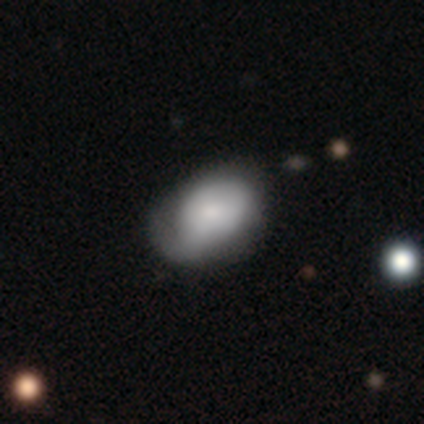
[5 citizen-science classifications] Smooth or featured? smooth (60%)
How rounded? in between (100%)
Merging? major disturbance (80%)